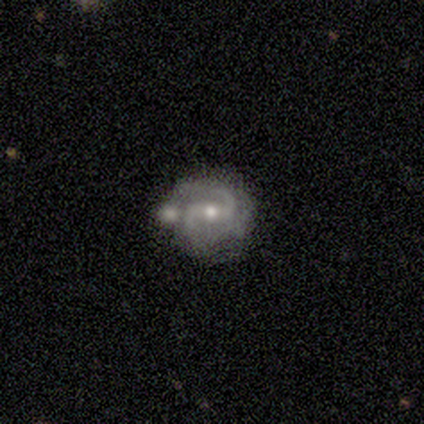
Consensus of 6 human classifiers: A featured or disk galaxy (100%) with a strong bar (67%), 2 (83%) tight (50%, tied with medium) spiral arms (100%) and a small central bulge (67%). Merging: none (67%).